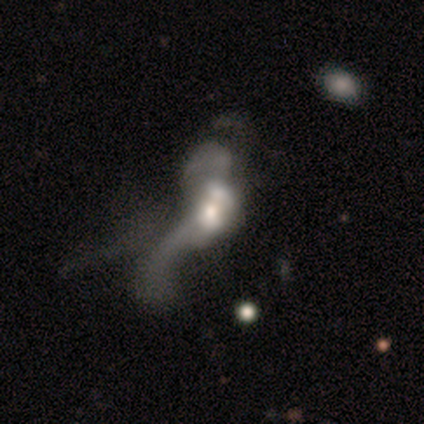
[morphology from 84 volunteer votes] Smooth or featured? featured or disk (65%)
Edge-on disk? no (95%)
Bar? no (87%)
Spiral arms? no (63%)
Bulge size? moderate (52%)
Merging? merger (52%)